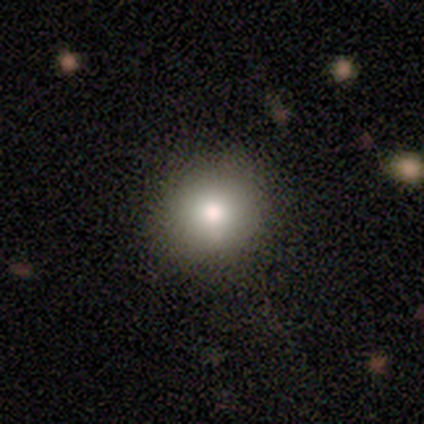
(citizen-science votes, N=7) smooth-or-featured: smooth: 86% | featured or disk: 14% | star or artifact: 0%
  how-rounded: round: 50% (tied) | in between: 50% (tied) | cigar-shaped: 0%
  merging: none: 100% | minor disturbance: 0% | major disturbance: 0% | merger: 0%